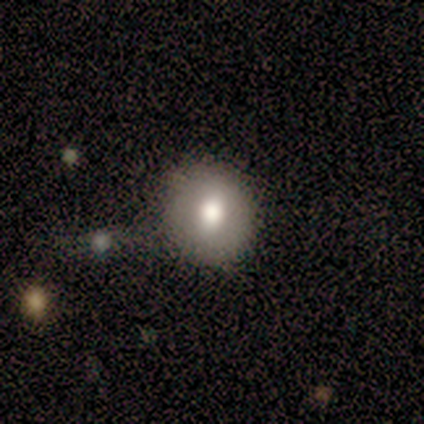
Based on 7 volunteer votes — This appears to be a smooth galaxy with no disk features (71%) that is round (100%). Merging: none (100%).